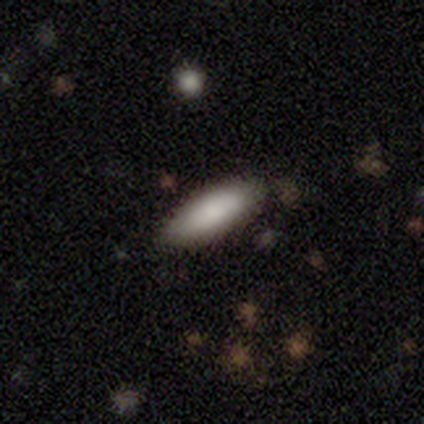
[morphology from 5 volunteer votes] A smooth galaxy with no disk features (100%) that is in between round and cigar-shaped (80%). Merging: none (100%).